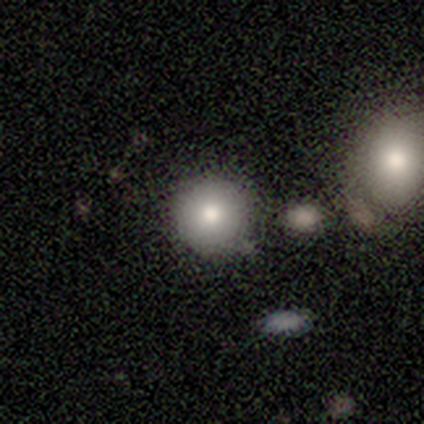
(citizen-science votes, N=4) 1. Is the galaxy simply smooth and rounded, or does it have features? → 50% smooth, 25% featured or disk, 25% star or artifact.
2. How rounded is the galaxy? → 100% round, 0% in between, 0% cigar-shaped.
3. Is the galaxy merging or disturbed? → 67% none, 33% minor disturbance, 0% major disturbance, 0% merger.